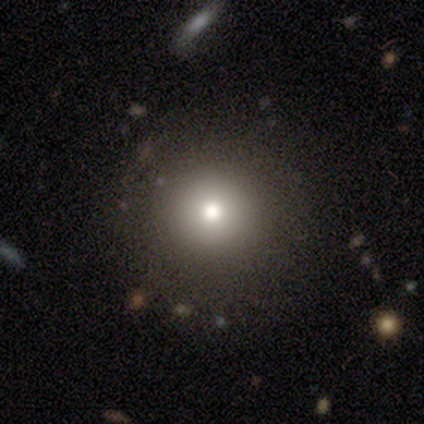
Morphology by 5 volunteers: smooth-or-featured: smooth: 100% | featured or disk: 0% | star or artifact: 0%
  how-rounded: round: 100% | in between: 0% | cigar-shaped: 0%
  merging: none: 60% | minor disturbance: 40% | major disturbance: 0% | merger: 0%